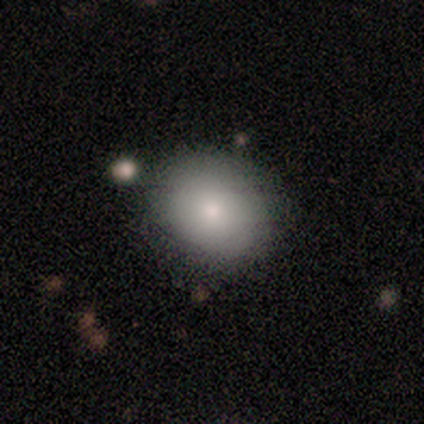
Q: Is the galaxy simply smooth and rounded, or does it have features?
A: smooth — 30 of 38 (79%).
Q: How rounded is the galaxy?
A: round — 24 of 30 (80%).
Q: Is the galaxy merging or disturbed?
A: none — 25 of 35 (71%).